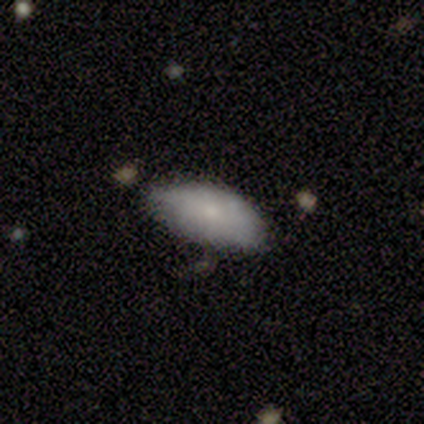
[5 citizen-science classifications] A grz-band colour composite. It shows a smooth galaxy with no disk features (60%) that is in between round and cigar-shaped (100%). Merging: minor disturbance (60%).